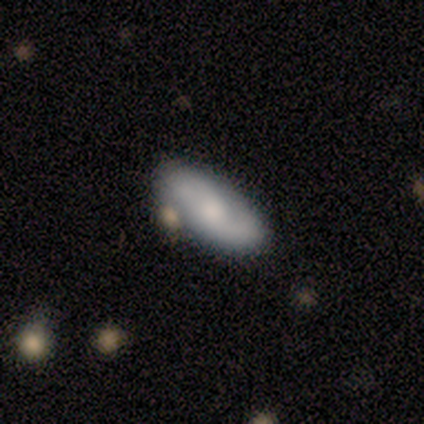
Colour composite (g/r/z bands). It shows a featured or disk galaxy (60%) with a weak bar (67%), 2 (100%) loose (100%) spiral arms (67%) and a dominant central bulge (33%, tied with moderate and small). Merging: none (60%).